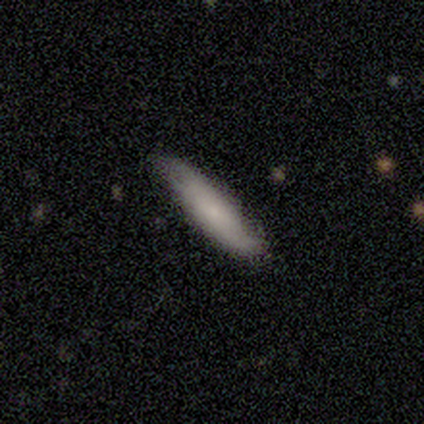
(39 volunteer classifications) Volunteers were most divided on "smooth or featured": smooth: 72%, featured or disk: 21%, star or artifact: 8%. More confident: how rounded — cigar-shaped (86%); merging — none (81%).